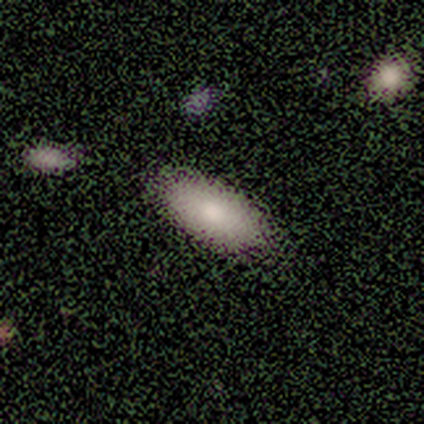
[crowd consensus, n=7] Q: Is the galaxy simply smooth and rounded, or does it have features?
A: smooth — 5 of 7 (71%).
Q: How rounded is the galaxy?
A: in between — 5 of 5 (100%).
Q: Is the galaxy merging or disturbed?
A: none — 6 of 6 (100%).